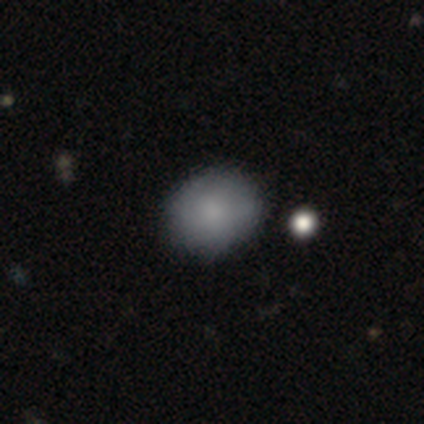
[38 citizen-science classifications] A smooth galaxy with no disk features (82%) that is round (65%). Merging: none (84%).